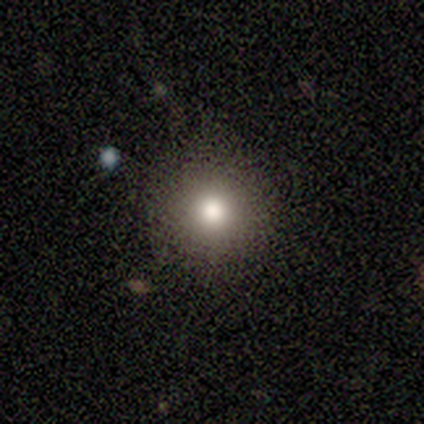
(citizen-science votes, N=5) smooth 100%, featured or disk 0%, star or artifact 0%. Down the decision tree: how rounded — round (100%); merging — none (100%).